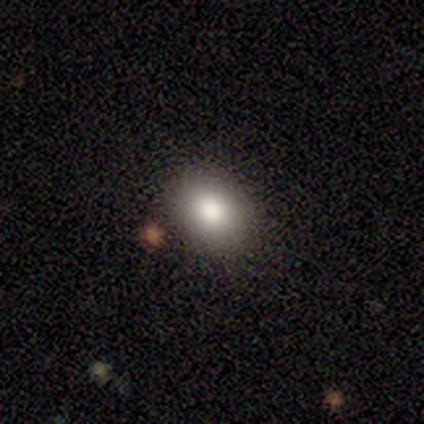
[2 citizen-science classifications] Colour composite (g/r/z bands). It shows a smooth galaxy with no disk features (100%) that is in between round and cigar-shaped (50%, tied with cigar-shaped). Merging: none (50%, tied with minor disturbance).